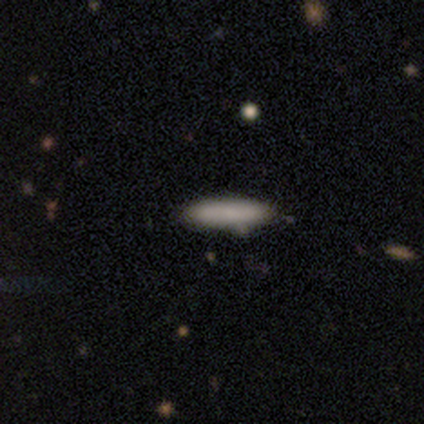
Smooth or featured: smooth — 100%
How rounded: cigar-shaped — 80% (in between — 20%)
Merging: none — 80% (merger — 20%)